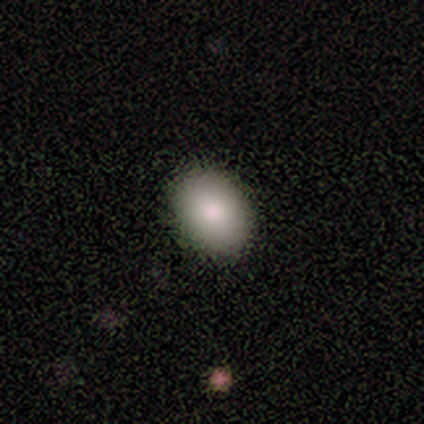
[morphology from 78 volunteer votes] Overall: smooth (88%). How rounded: in between (74%). Merging: none (44%; minor disturbance 4%).